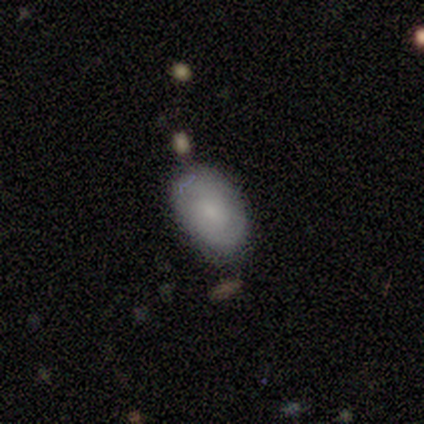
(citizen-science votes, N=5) A smooth galaxy with no disk features (40%, tied with featured or disk) that is in between round and cigar-shaped (100%). Merging: none (75%).